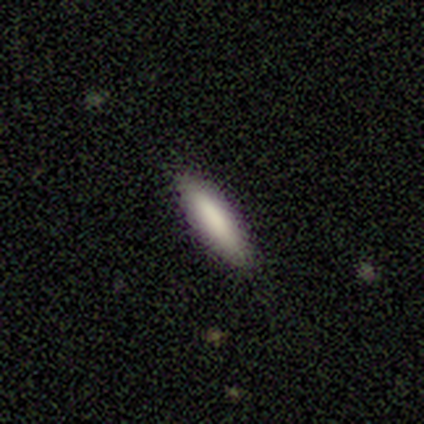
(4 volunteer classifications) smooth_or_featured: smooth (p=1.00)
how_rounded: cigar-shaped (p=1.00)
merging: none (p=1.00)